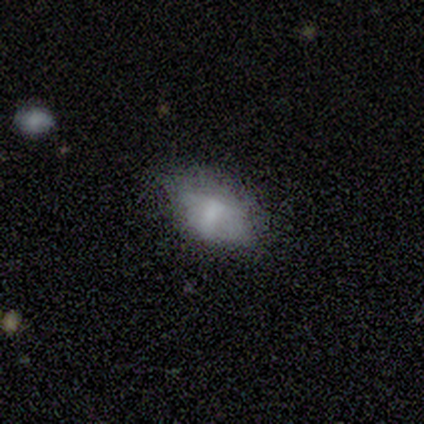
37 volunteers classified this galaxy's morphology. A smooth galaxy with no disk features (73%) that is in between round and cigar-shaped (89%). Merging: none (52%).